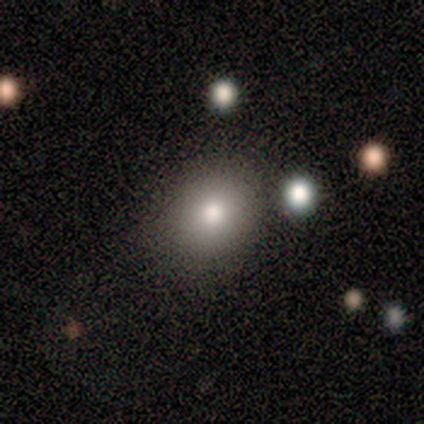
A smooth galaxy with no disk features (89%) that is round (62%).

Vote fractions:
- Smooth or featured? smooth: 89% / featured or disk: 11% / star or artifact: 0%
- How rounded? round: 62% / in between: 38% / cigar-shaped: 0%
- Merging? none: 67% / minor disturbance: 22% / major disturbance: 11% / merger: 0%